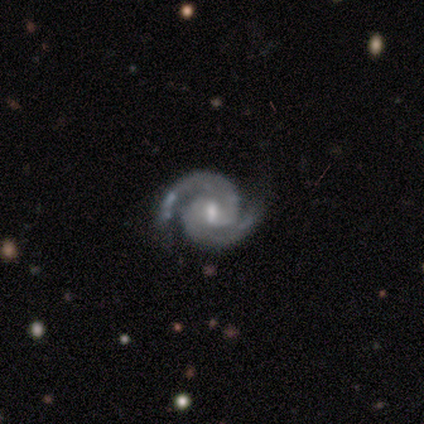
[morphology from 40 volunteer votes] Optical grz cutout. It shows a featured or disk galaxy (100%) with a weak bar (62%), 2 (95%) tight (54%) spiral arms (100%) and a moderate central bulge (46%, tied with small). Merging: none (88%).